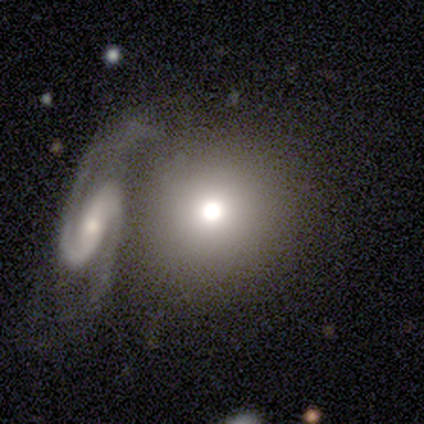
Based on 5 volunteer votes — smooth_or_featured: smooth (p=0.80) [alt: featured or disk p=0.20]
how_rounded: round (p=0.75) [alt: in between p=0.25]
merging: merger (p=0.60) [alt: none p=0.20]